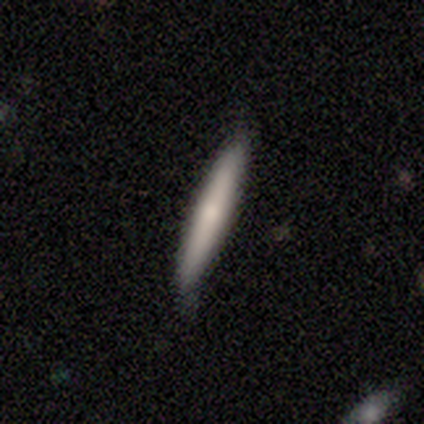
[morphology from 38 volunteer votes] Smooth or featured? smooth (76%)
How rounded? cigar-shaped (97%)
Merging? none (72%)